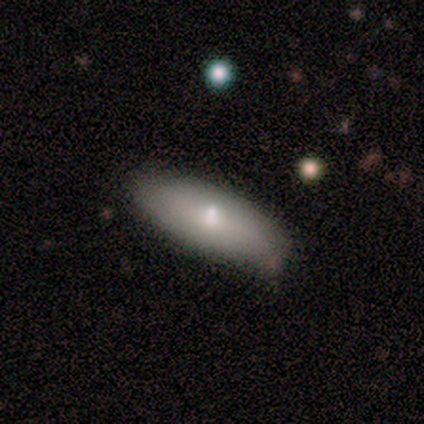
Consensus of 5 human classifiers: This is clearly a smooth galaxy (100%). How rounded: clearly in between (80%). Merging: clearly none (80%).